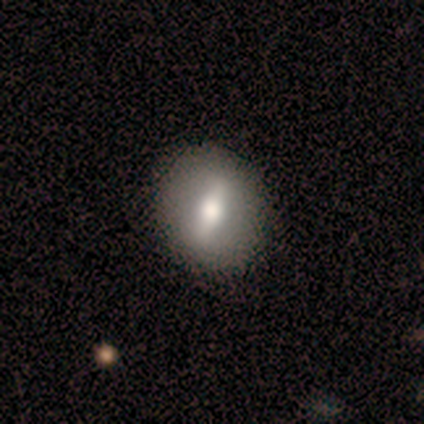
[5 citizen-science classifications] Smooth or featured? smooth (40%, tied with featured or disk)
How rounded? in between (100%)
Merging? none (100%)